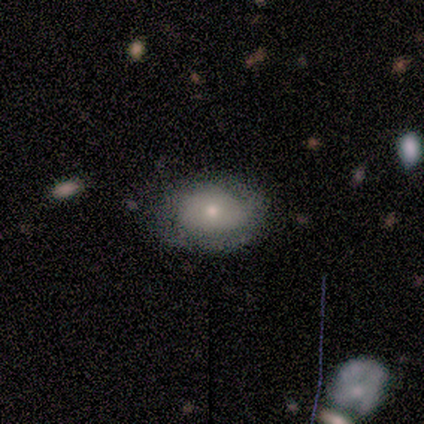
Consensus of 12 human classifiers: This is possibly a smooth galaxy (58%). How rounded: clearly in between (86%). Merging: likely none (73%).